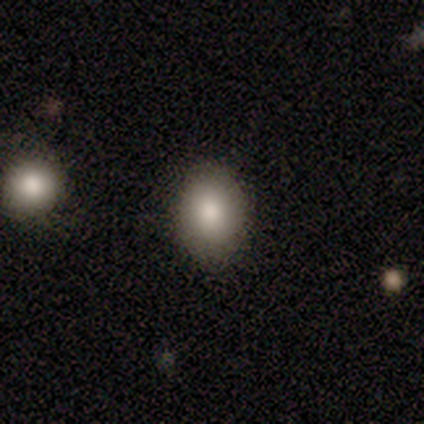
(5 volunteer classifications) Smooth or featured: smooth — 80% (star or artifact — 20%)
How rounded: in between — 75% (round — 25%)
Merging: none — 75% (minor disturbance — 25%)